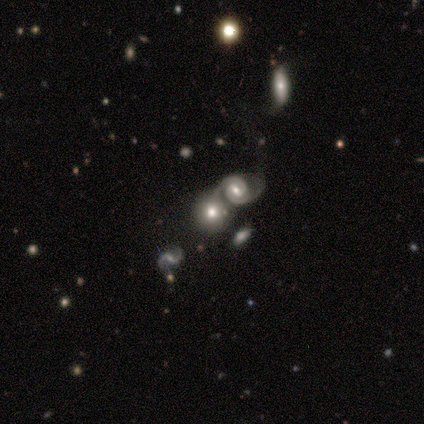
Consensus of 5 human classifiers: Volunteers were most divided on "smooth or featured": featured or disk: 60%, smooth: 40%, star or artifact: 0%. More confident: edge-on disk — no (100%); merging — merger (100%); bar — no (67%); spiral arms — no (67%); bulge size — large (67%).